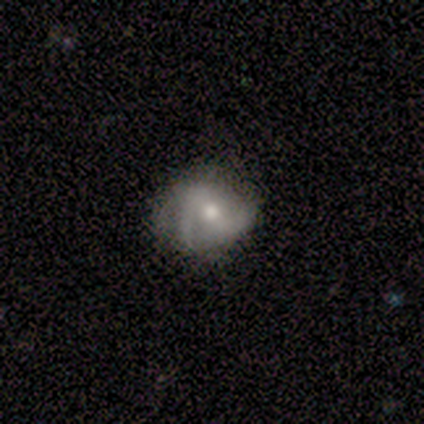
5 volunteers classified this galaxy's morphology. Volunteers were most divided on "smooth or featured": smooth: 60%, featured or disk: 40%, star or artifact: 0%. More confident: how rounded — round (100%); merging — none (80%).